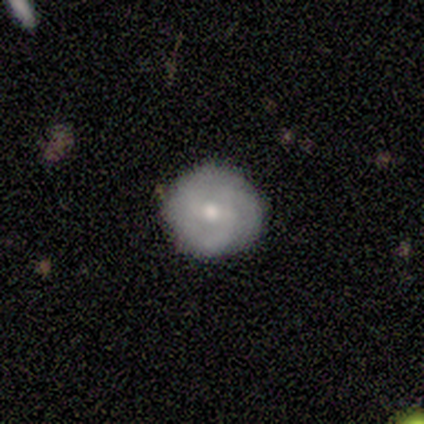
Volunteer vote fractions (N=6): Smooth or featured?
  - featured or disk: 100% *
  - smooth: 0%
  - star or artifact: 0%
Edge-on disk?
  - no: 100% *
  - yes: 0%
Bar?
  - weak: 67% *
  - no: 33%
  - strong: 0%
Spiral arms?
  - yes: 83% *
  - no: 17%
Spiral winding?
  - tight: 80% *
  - medium: 20%
  - loose: 0%
Spiral arm count?
  - 1: 40% * (tied)
  - 3: 40% * (tied)
  - 2: 20%
  - 4: 0%
  - more than 4: 0%
  - can't tell: 0%
Bulge size?
  - moderate: 50% *
  - small: 33%
  - large: 17%
  - dominant: 0%
  - none: 0%
Merging?
  - none: 100% *
  - minor disturbance: 0%
  - major disturbance: 0%
  - merger: 0%